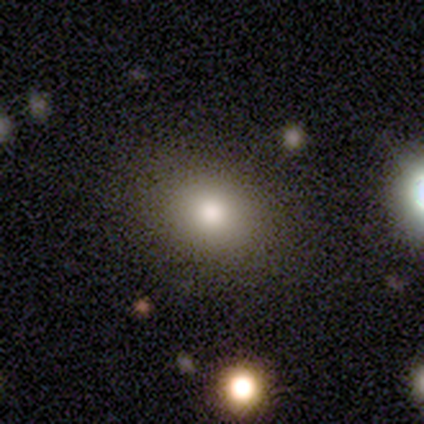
Smooth or featured?
  - smooth: 74% *
  - featured or disk: 16%
  - star or artifact: 11%
How rounded?
  - round: 57% *
  - in between: 43%
  - cigar-shaped: 0%
Merging?
  - none: 91% *
  - minor disturbance: 3%
  - major disturbance: 3%
  - merger: 3%